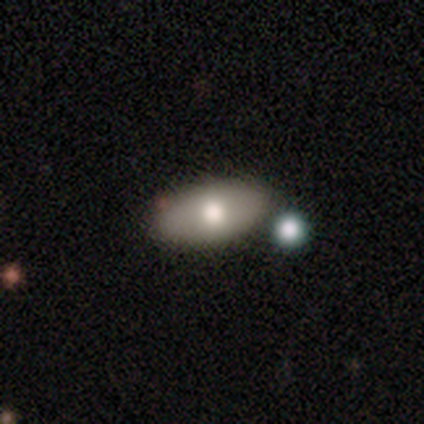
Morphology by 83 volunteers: A smooth galaxy with no disk features (72%) that is in between round and cigar-shaped (97%).

Vote fractions:
- Smooth or featured? smooth: 72% / featured or disk: 23% / star or artifact: 5%
- How rounded? in between: 97% / round: 2% / cigar-shaped: 2%
- Merging? none: 71% / minor disturbance: 18% / merger: 8% / major disturbance: 4%